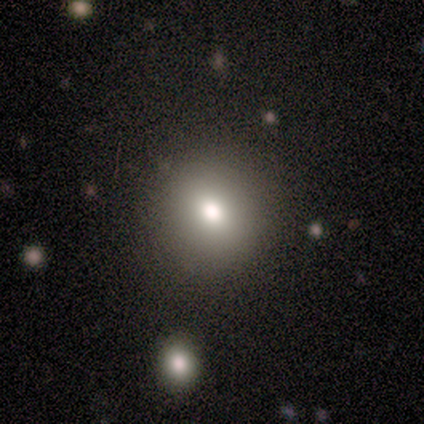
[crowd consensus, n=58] smooth_or_featured: smooth (p=0.76) [alt: featured or disk p=0.14]
how_rounded: round (p=0.86) [alt: in between p=0.14]
merging: none (p=0.96) [alt: minor disturbance p=0.02]